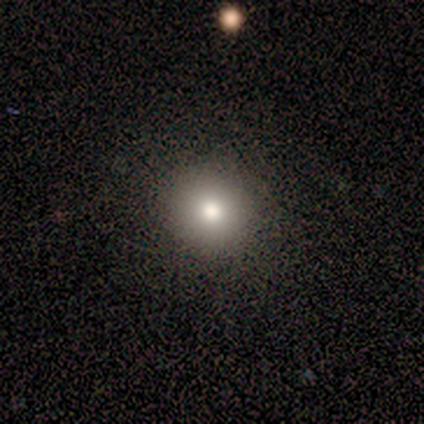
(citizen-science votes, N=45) Volunteers were most divided on "smooth or featured": smooth: 73%, featured or disk: 18%, star or artifact: 9%. More confident: how rounded — round (97%); merging — none (95%).